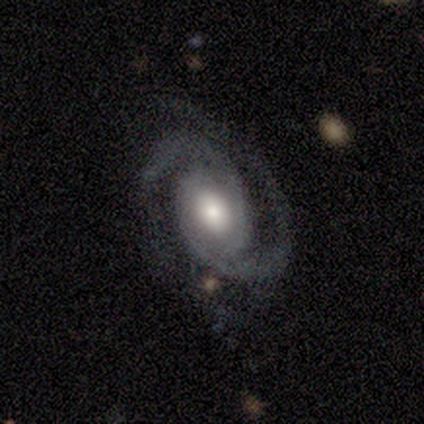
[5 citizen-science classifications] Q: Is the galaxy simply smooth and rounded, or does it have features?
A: featured or disk — 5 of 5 (100%).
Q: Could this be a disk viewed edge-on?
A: no — 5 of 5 (100%).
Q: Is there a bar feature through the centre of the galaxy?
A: weak — 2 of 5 (40%, tied with no).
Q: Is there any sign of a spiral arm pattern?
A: yes — 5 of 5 (100%).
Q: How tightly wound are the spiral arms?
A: tight — 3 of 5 (60%).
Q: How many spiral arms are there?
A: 2 — 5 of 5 (100%).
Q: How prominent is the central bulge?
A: moderate — 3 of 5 (60%).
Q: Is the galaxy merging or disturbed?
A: none — 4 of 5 (80%).